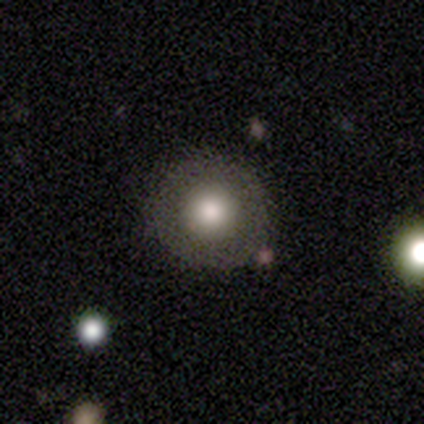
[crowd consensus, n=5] Smooth or featured: smooth — 60% (featured or disk — 20%)
How rounded: round — 100%
Merging: none — 75% (minor disturbance — 25%)